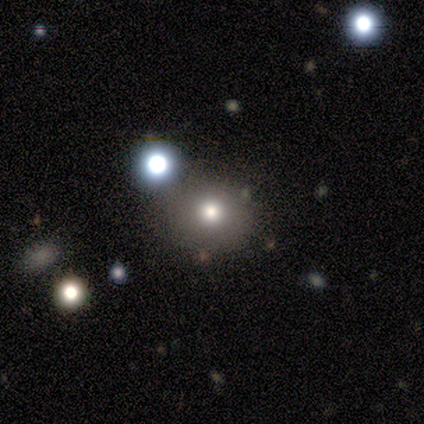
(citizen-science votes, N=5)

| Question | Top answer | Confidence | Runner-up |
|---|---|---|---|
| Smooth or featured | smooth | 100% | — |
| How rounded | round | 80% | in between (20%) |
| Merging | none | 40% | tied: minor disturbance (40%) |